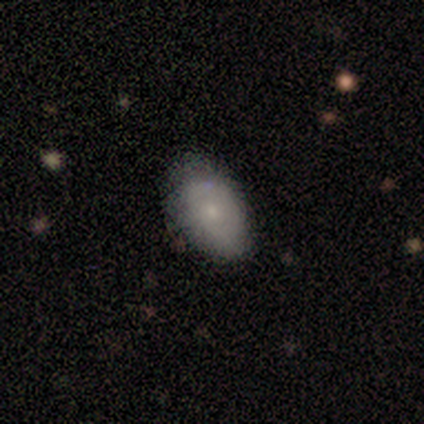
A smooth galaxy with no disk features (60%) that is in between round and cigar-shaped (100%).

Vote fractions:
- Smooth or featured? smooth: 60% / featured or disk: 40% / star or artifact: 0%
- How rounded? in between: 100% / round: 0% / cigar-shaped: 0%
- Merging? none: 60% / minor disturbance: 40% / major disturbance: 0% / merger: 0%